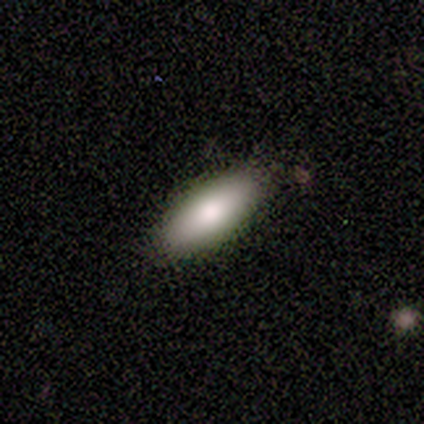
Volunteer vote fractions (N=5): Smooth or featured? 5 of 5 (100%) said smooth. How rounded? 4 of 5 (80%) said in between. Merging? 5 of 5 (100%) said none.